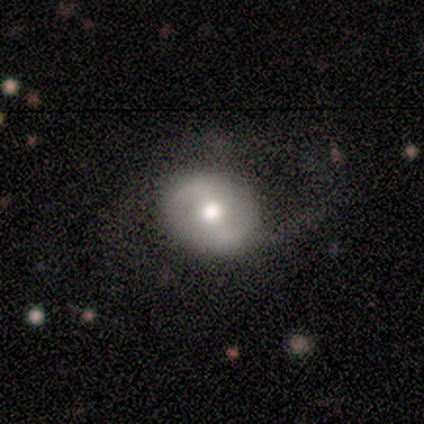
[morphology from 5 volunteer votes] smooth_or_featured: featured or disk (p=0.60) [alt: smooth p=0.40]
disk_edge_on: no (p=1.00)
bar: weak (p=0.67) [alt: no p=0.33]
has_spiral_arms: yes (p=1.00)
spiral_winding: tight (p=0.67) [alt: medium p=0.33]
spiral_arm_count: 2 (p=1.00)
bulge_size: moderate (p=1.00)
merging: none (p=0.80) [alt: major disturbance p=0.20]